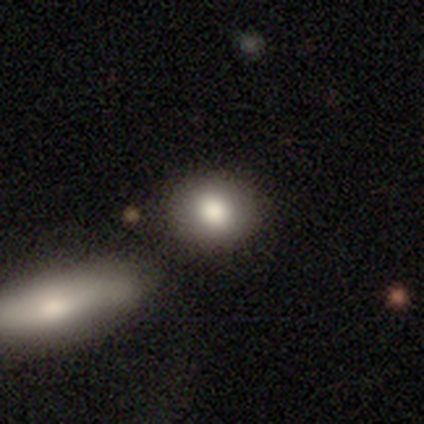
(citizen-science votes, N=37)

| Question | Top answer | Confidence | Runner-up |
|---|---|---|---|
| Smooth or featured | smooth | 86% | featured or disk (8%) |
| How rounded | round | 53% | in between (47%) |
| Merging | merger | 54% | — |